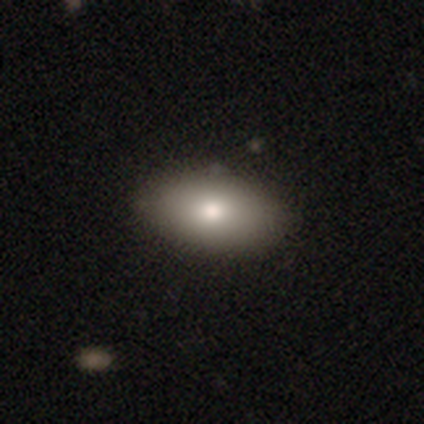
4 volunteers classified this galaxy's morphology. Smooth or featured?
  - smooth: 75% *
  - featured or disk: 25%
  - star or artifact: 0%
How rounded?
  - in between: 100% *
  - round: 0%
  - cigar-shaped: 0%
Merging?
  - none: 100% *
  - minor disturbance: 0%
  - major disturbance: 0%
  - merger: 0%